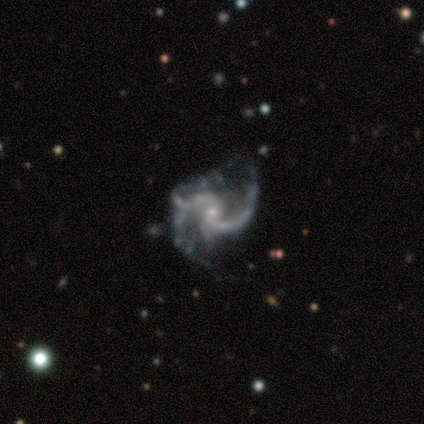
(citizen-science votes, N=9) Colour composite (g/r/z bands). It shows a featured or disk galaxy (100%) with no bar (89%), 2 (100%) medium (67%) spiral arms (100%) and a small central bulge (89%). Merging: major disturbance (44%).